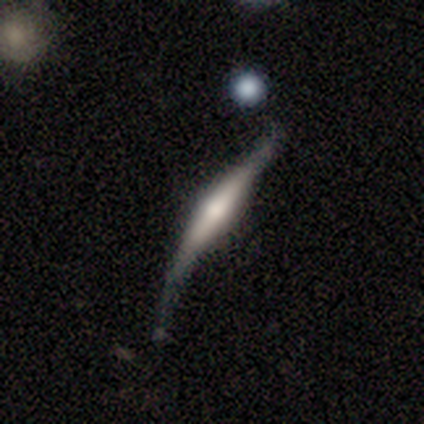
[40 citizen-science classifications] A featured or disk galaxy (72%) viewed edge-on (97%) with a rounded central bulge (68%).

Vote fractions:
- Smooth or featured? featured or disk: 72% / smooth: 20% / star or artifact: 8%
- Edge-on disk? yes: 97% / no: 3%
- Edge-on bulge? rounded: 68% / boxy: 25% / none: 7%
- Merging? none: 41% / minor disturbance: 30% / major disturbance: 24% / merger: 5%